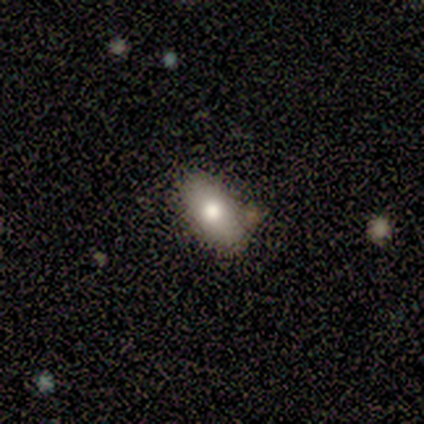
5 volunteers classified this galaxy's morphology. Q: Smooth or featured?
A: smooth (80%); runner-up: featured or disk (20%)
Q: How rounded?
A: in between (100%)
Q: Merging?
A: none (80%); runner-up: merger (20%)